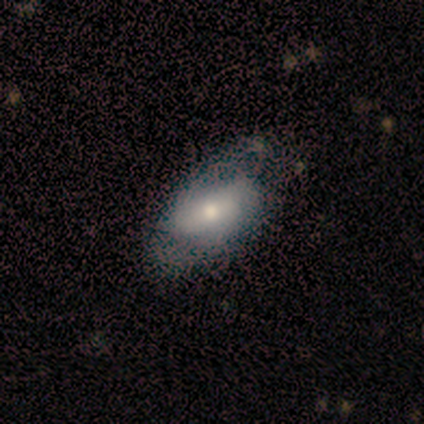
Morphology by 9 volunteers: A smooth galaxy with no disk features (67%) that is in between round and cigar-shaped (100%).

Vote fractions:
- Smooth or featured? smooth: 67% / featured or disk: 22% / star or artifact: 11%
- How rounded? in between: 100% / round: 0% / cigar-shaped: 0%
- Merging? none: 75% / minor disturbance: 25% / major disturbance: 0% / merger: 0%